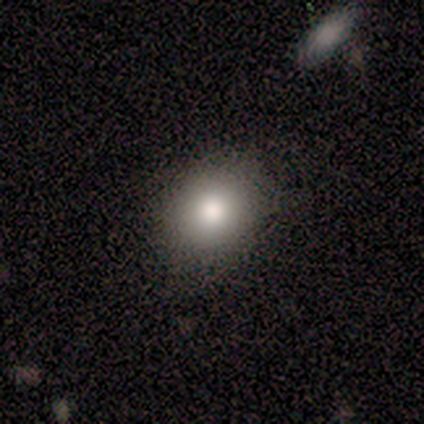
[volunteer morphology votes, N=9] This is likely a smooth galaxy (67%). How rounded: likely round (67%). Merging: clearly none (86%).